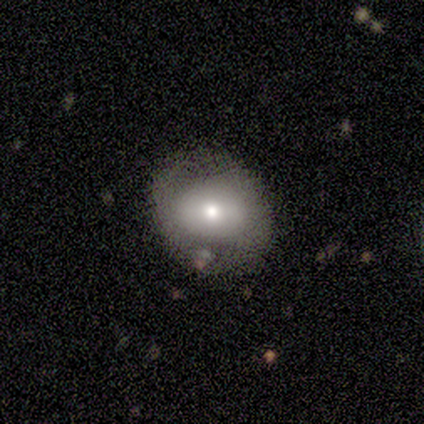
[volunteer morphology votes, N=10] smooth_or_featured: smooth (p=0.60) [alt: featured or disk p=0.20]
how_rounded: round (p=0.83) [alt: in between p=0.17]
merging: none (p=0.75) [alt: major disturbance p=0.12]